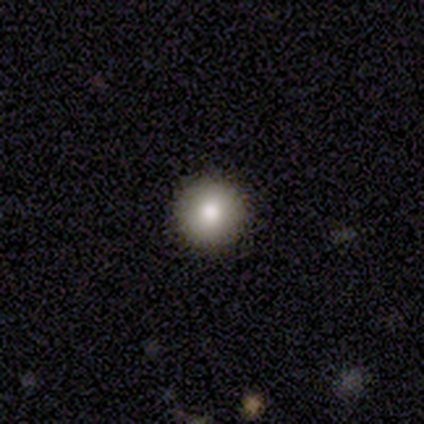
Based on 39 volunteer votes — Volunteers were most divided on "smooth or featured": smooth: 85%, star or artifact: 10%, featured or disk: 5%. More confident: how rounded — round (97%); merging — none (91%).